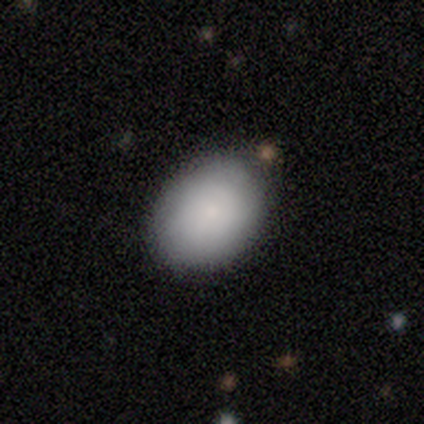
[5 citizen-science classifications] Q: Smooth or featured?
A: smooth (80%); runner-up: star or artifact (20%)
Q: How rounded?
A: in between (100%)
Q: Merging?
A: none (75%); runner-up: minor disturbance (25%)